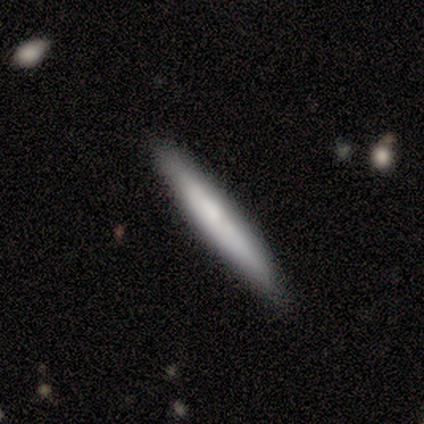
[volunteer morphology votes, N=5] Smooth or featured? smooth (60%)
How rounded? cigar-shaped (100%)
Merging? none (80%)